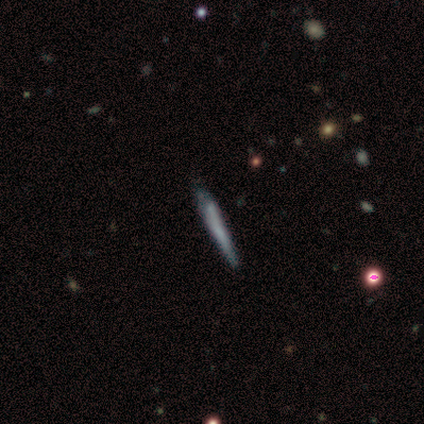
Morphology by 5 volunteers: Smooth or featured? featured or disk (80%)
Edge-on disk? yes (100%)
Edge-on bulge? none (75%)
Merging? none (80%)